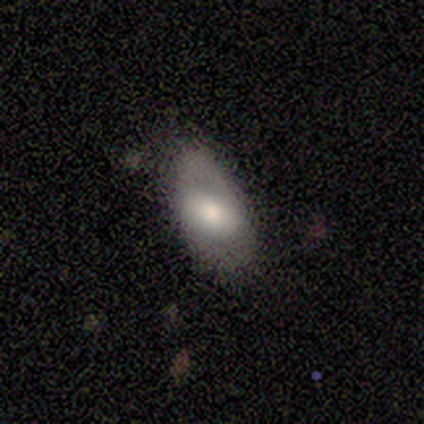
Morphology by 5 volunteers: Overall: smooth (80%). How rounded: in between (100%). Merging: none (40%, tied with minor disturbance).